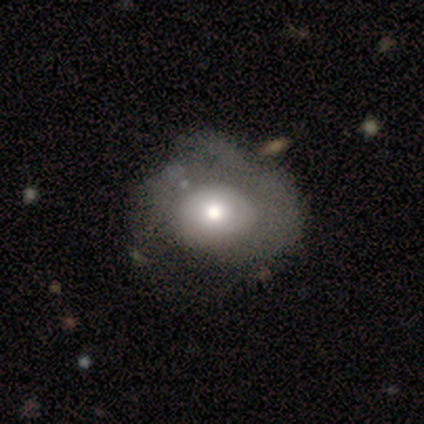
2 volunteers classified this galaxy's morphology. Volunteers were most divided on "merging" (2-way tie): none: 50%, major disturbance: 50%, minor disturbance: 0%, merger: 0%. More confident: smooth or featured — smooth (100%); how rounded — in between (100%).